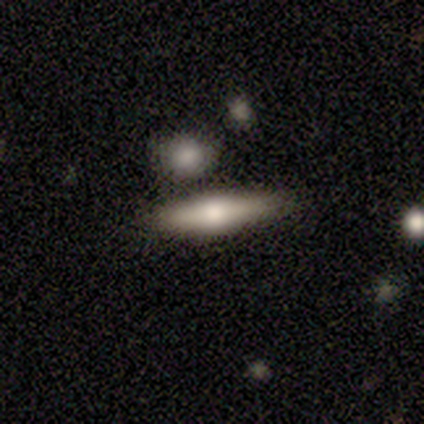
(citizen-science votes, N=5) Q: Smooth or featured?
A: smooth (80%); runner-up: featured or disk (20%)
Q: How rounded?
A: cigar-shaped (75%); runner-up: in between (25%)
Q: Merging?
A: none (80%); runner-up: minor disturbance (20%)